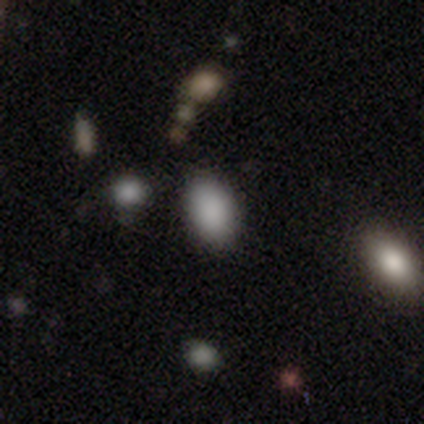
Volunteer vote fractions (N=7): Volunteers were most divided on "merging": none: 83%, minor disturbance: 17%, major disturbance: 0%, merger: 0%. More confident: how rounded — in between (100%); smooth or featured — smooth (86%).